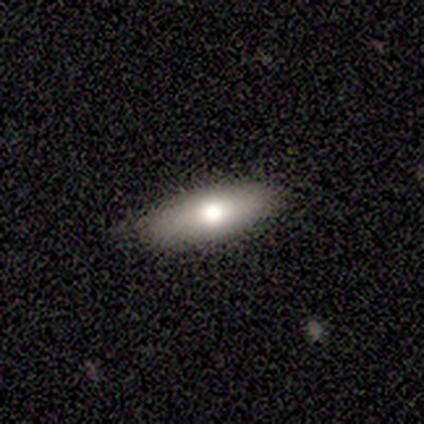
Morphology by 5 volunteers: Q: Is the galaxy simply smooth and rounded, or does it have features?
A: smooth — 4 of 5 (80%).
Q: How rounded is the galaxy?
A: in between — 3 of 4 (75%).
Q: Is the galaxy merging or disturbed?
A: none — 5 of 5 (100%).